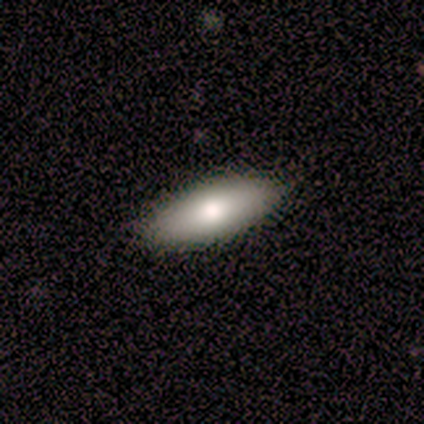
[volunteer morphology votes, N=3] Smooth or featured? 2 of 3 (67%) said smooth. How rounded? 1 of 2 (50%, tied with cigar-shaped) said in between. Merging? 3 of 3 (100%) said none.